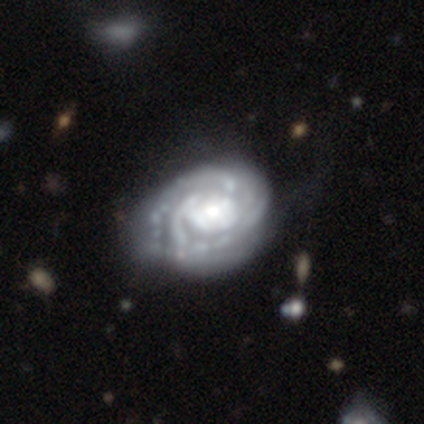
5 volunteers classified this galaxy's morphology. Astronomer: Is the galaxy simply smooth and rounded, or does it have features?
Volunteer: featured or disk — 80%.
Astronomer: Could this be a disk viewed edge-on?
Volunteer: no — 75%.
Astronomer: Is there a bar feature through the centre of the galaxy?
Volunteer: no — 100%.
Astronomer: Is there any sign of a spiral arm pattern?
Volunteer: yes — 100%.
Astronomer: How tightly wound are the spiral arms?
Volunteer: medium — 67%.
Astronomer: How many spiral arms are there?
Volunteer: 2 — 67%.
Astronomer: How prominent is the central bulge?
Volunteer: moderate — 67%.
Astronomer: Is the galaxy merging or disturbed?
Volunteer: none — 40%, tied with major disturbance at 40%.